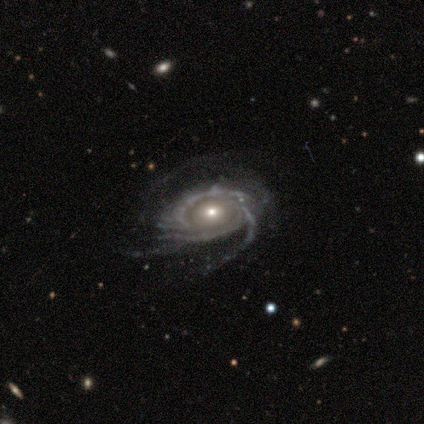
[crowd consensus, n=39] Smooth or featured? featured or disk (79%)
Edge-on disk? no (100%)
Bar? no (77%)
Spiral arms? yes (97%)
Spiral winding? tight (53%)
Spiral arm count? can't tell (40%)
Bulge size? moderate (58%)
Merging? none (57%)